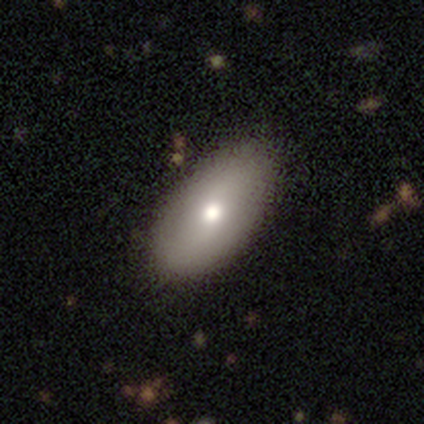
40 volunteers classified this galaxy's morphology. smooth 72%, featured or disk 18%, star or artifact 10%. Down the decision tree: how rounded — in between (83%); merging — none (86%).